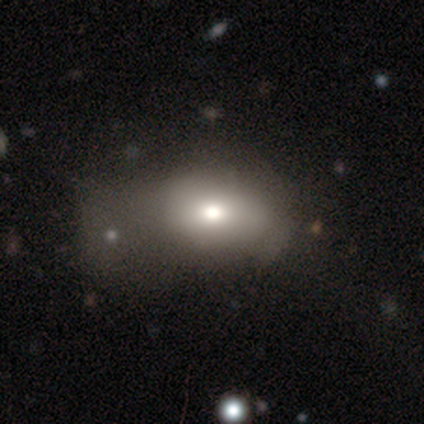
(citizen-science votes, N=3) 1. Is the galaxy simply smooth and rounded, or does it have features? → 67% smooth, 33% star or artifact, 0% featured or disk.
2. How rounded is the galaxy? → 50% round (tied), 50% in between (tied), 0% cigar-shaped.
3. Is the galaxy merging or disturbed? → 50% minor disturbance (tied), 50% major disturbance (tied), 0% none, 0% merger.